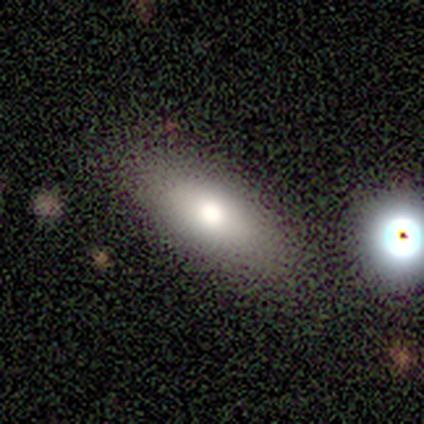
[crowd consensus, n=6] This appears to be a smooth galaxy with no disk features (50%, tied with featured or disk) that is in between round and cigar-shaped (100%). Merging: none (100%).